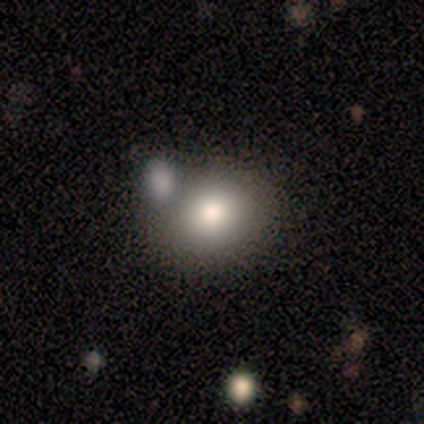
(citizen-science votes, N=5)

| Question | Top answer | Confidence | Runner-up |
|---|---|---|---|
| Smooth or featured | smooth | 80% | featured or disk (20%) |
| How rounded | in between | 75% | round (25%) |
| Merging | none | 40% | tied: minor disturbance (40%) |